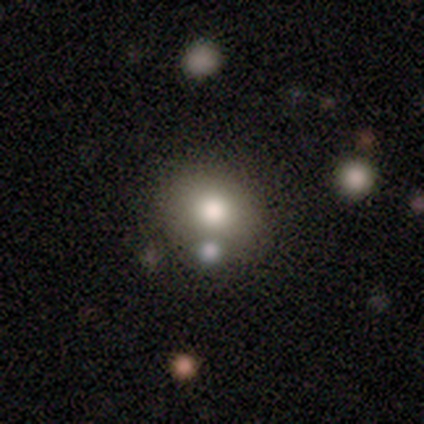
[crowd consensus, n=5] Smooth or featured? 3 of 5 (60%) said smooth. How rounded? 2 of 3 (67%) said round. Merging? 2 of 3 (67%) said none.